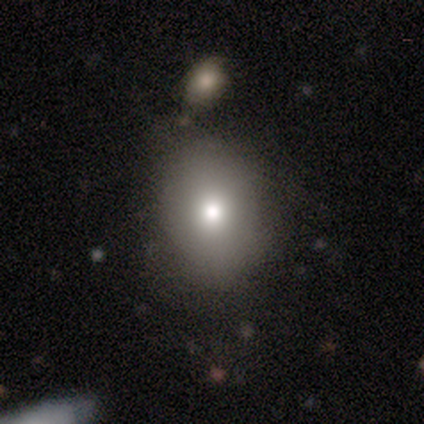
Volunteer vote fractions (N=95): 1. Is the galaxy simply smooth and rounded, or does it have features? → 83% smooth, 11% star or artifact, 6% featured or disk.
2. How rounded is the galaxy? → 51% round, 49% in between, 0% cigar-shaped.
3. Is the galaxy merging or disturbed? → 62% none, 22% minor disturbance, 9% merger, 6% major disturbance.